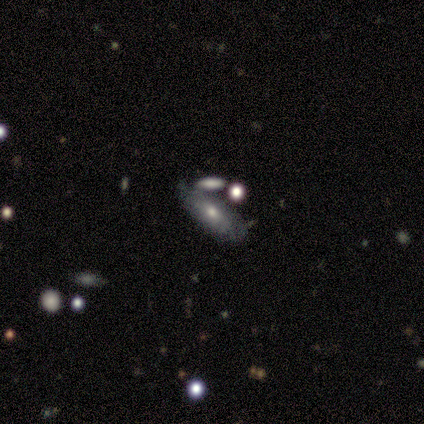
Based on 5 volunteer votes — A smooth galaxy with no disk features (60%) that is in between round and cigar-shaped (67%). Merging: none (60%).